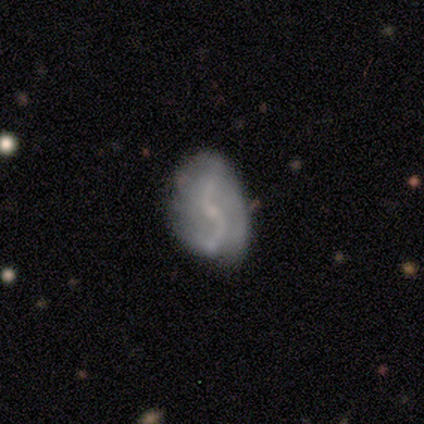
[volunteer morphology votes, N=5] A featured or disk galaxy (100%) with a strong bar (40%, tied with no), 2 (80%) loose (80%) spiral arms (100%) and a small central bulge (80%). Merging: none (80%).